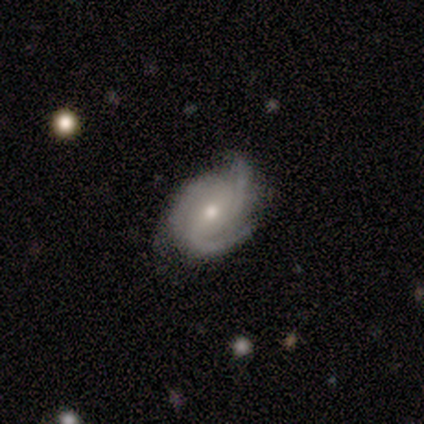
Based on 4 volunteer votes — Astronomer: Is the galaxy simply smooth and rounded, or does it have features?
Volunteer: featured or disk — 100%.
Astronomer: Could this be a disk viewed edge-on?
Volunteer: no — 100%.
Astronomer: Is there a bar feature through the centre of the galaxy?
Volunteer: no — 100%.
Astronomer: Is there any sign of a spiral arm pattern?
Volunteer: yes — 100%.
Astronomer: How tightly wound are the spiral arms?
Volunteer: tight — 75%.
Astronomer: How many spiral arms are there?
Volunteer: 3 — 100%.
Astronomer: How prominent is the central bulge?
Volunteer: small — 100%.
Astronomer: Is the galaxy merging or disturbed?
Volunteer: none — 75%.